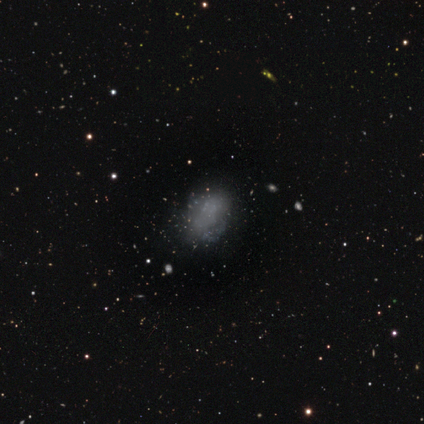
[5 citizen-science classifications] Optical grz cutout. It shows a smooth galaxy with no disk features (60%) that is in between round and cigar-shaped (67%). Merging: none (67%).